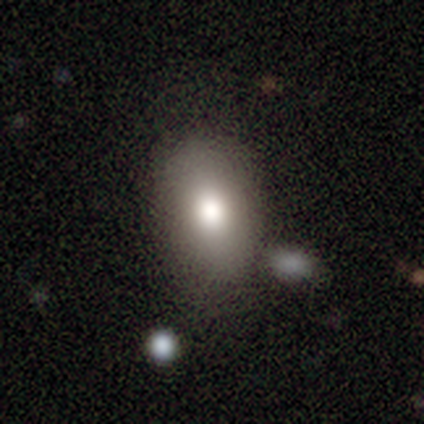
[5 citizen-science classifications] Smooth or featured?
  - smooth: 40% * (tied)
  - featured or disk: 40% * (tied)
  - star or artifact: 20%
How rounded?
  - in between: 100% *
  - round: 0%
  - cigar-shaped: 0%
Merging?
  - none: 100% *
  - minor disturbance: 0%
  - major disturbance: 0%
  - merger: 0%